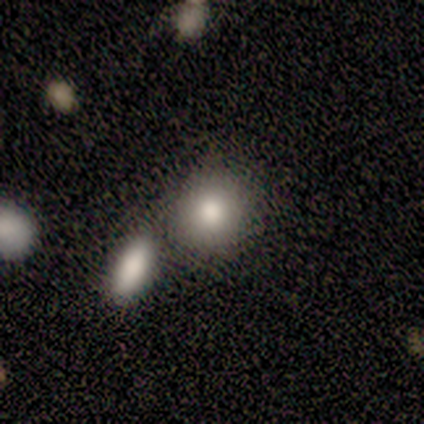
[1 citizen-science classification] Smooth or featured?
  - smooth: 100% *
  - featured or disk: 0%
  - star or artifact: 0%
How rounded?
  - round: 100% *
  - in between: 0%
  - cigar-shaped: 0%
Merging?
  - merger: 100% *
  - none: 0%
  - minor disturbance: 0%
  - major disturbance: 0%